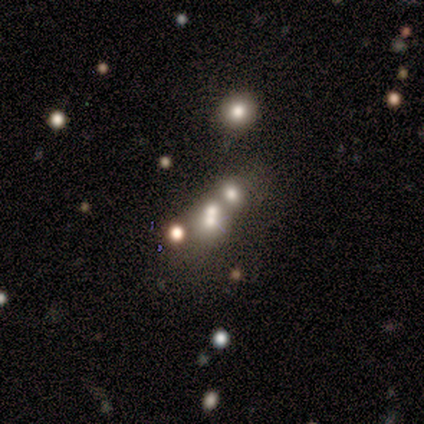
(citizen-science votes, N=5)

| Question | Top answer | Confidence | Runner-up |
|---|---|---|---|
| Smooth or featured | star or artifact | 60% | smooth (40%) |